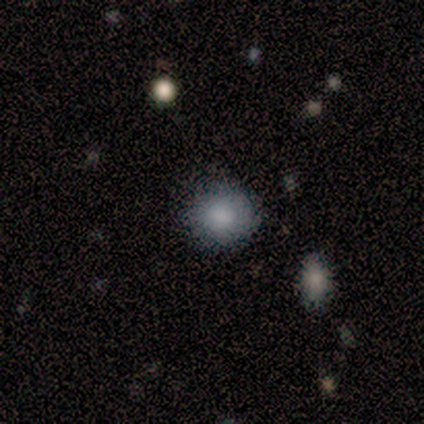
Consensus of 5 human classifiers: Smooth or featured?
  - smooth: 60% *
  - star or artifact: 40%
  - featured or disk: 0%
How rounded?
  - round: 67% *
  - in between: 33%
  - cigar-shaped: 0%
Merging?
  - none: 100% *
  - minor disturbance: 0%
  - major disturbance: 0%
  - merger: 0%